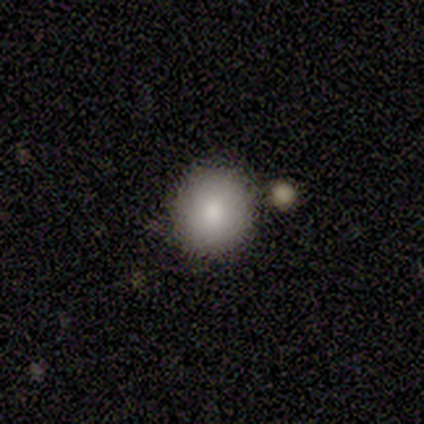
Morphology: type=smooth (100%); roundness=round (80%); merging=none (60%).